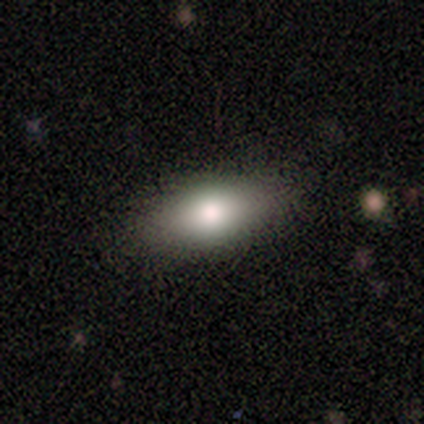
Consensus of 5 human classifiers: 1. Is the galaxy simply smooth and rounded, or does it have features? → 60% smooth, 40% featured or disk, 0% star or artifact.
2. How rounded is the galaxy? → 100% in between, 0% round, 0% cigar-shaped.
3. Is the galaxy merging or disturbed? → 100% none, 0% minor disturbance, 0% major disturbance, 0% merger.